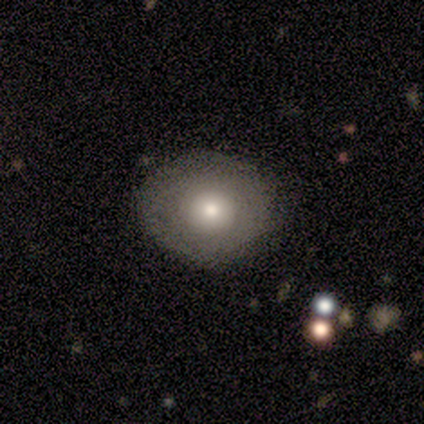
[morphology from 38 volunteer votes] Volunteers were most divided on "how rounded": round: 65%, in between: 35%, cigar-shaped: 0%. More confident: smooth or featured — smooth (68%); merging — none (68%).